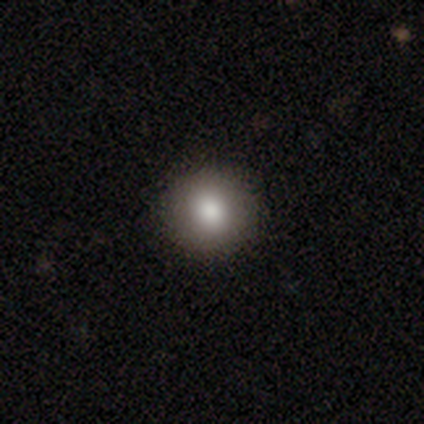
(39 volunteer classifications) Smooth or featured? 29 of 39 (74%) said smooth. How rounded? 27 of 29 (93%) said round. Merging? 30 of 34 (88%) said none.